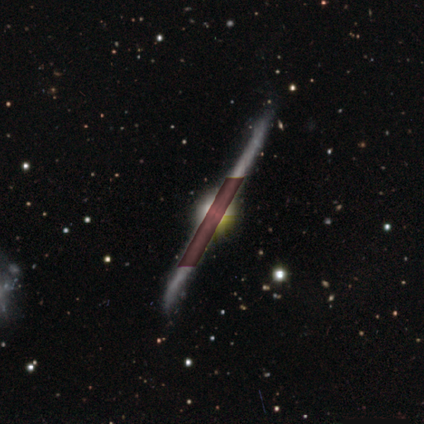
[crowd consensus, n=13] Smooth or featured: featured or disk — 77% (star or artifact — 23%)
Edge-on disk: yes — 100%
Edge-on bulge: rounded — 70% (boxy — 30%)
Merging: none — 90% (minor disturbance — 10%)